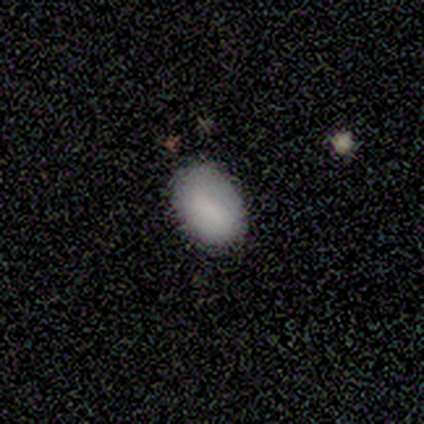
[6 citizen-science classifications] smooth 100%, featured or disk 0%, star or artifact 0%. Down the decision tree: how rounded — in between (100%); merging — none (67%).